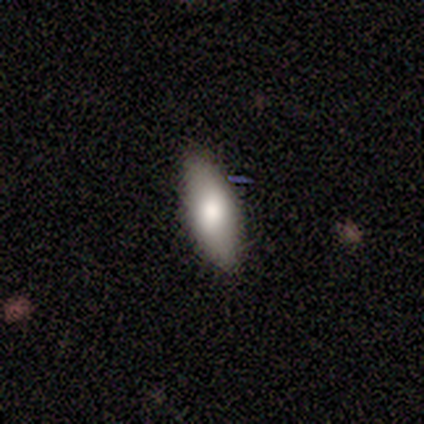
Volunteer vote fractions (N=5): Smooth or featured?
  - smooth: 60% *
  - featured or disk: 20%
  - star or artifact: 20%
How rounded?
  - in between: 100% *
  - round: 0%
  - cigar-shaped: 0%
Merging?
  - none: 100% *
  - minor disturbance: 0%
  - major disturbance: 0%
  - merger: 0%